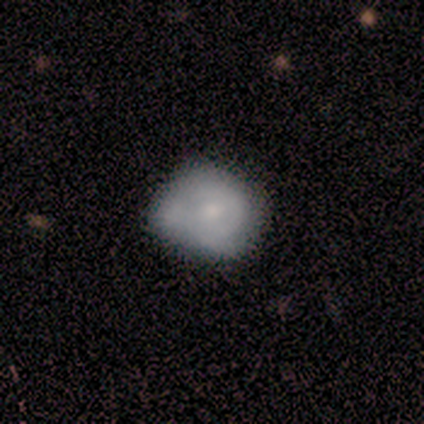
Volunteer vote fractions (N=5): This is clearly a featured or disk galaxy (80%). It is clearly not viewed edge-on (100%). Bar: likely no (75%). Spiral arm pattern: possibly yes (50%, tied with no). Spiral arm count: clearly can't tell (100%). Spiral winding: possibly tight (50%, tied with medium). Central bulge: possibly moderate (50%, tied with small). Merging: marginally none (40%).